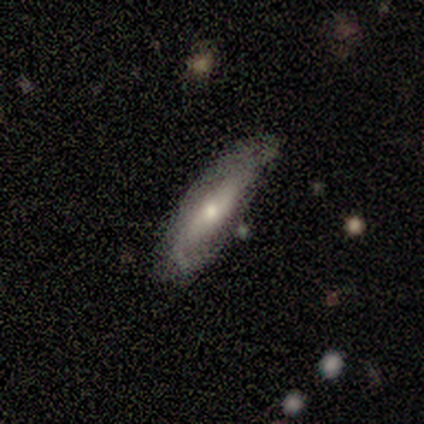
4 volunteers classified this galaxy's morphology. A featured or disk galaxy (50%) viewed edge-on (100%) with a rounded central bulge (100%).

Vote fractions:
- Smooth or featured? featured or disk: 50% / smooth: 25% / star or artifact: 25%
- Edge-on disk? yes: 100% / no: 0%
- Edge-on bulge? rounded: 100% / boxy: 0% / none: 0%
- Merging? minor disturbance: 67% / none: 33% / major disturbance: 0% / merger: 0%